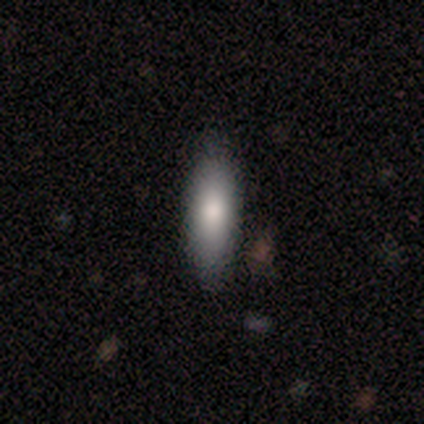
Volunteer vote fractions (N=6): Smooth or featured? 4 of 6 (67%) said smooth. How rounded? 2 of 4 (50%, tied with cigar-shaped) said in between. Merging? 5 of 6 (83%) said none.